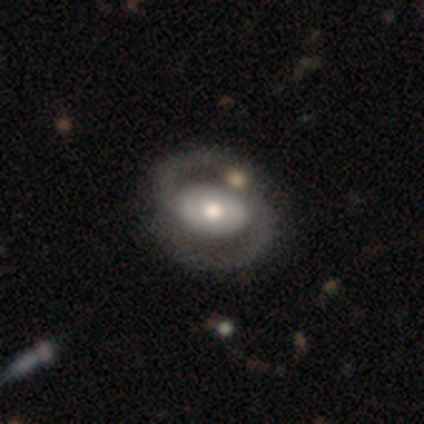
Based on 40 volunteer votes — This is clearly a featured or disk galaxy (88%). It is clearly not viewed edge-on (97%). Bar: possibly no (47%). Spiral arm pattern: clearly yes (85%). Spiral arm count: clearly 2 (97%). Spiral winding: likely medium (69%). Central bulge: likely moderate (74%). Merging: marginally none (41%).